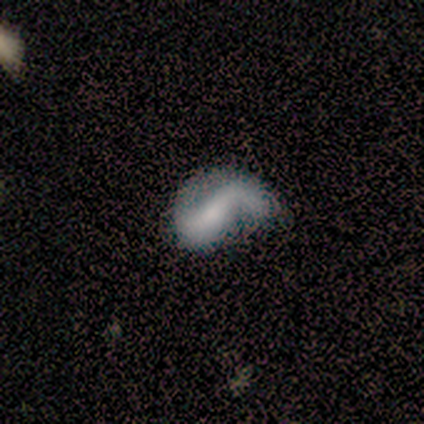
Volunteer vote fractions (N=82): A featured or disk galaxy (71%) with a strong bar (44%), 2 (69%) loose (67%) spiral arms (82%) and a small central bulge (40%). Merging: major disturbance (43%).